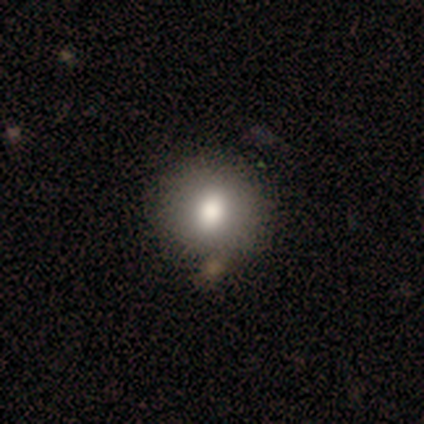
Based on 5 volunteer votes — smooth_or_featured: smooth (p=0.80) [alt: featured or disk p=0.20]
how_rounded: round (p=1.00)
merging: none (p=1.00)